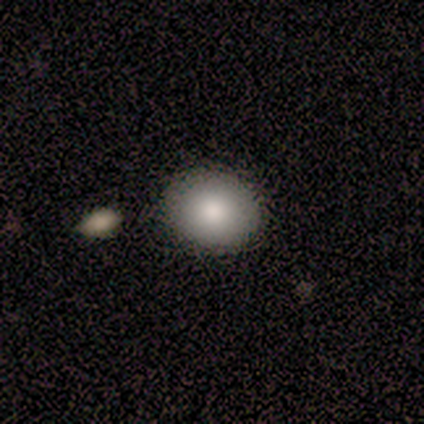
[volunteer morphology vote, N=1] smooth 100%, featured or disk 0%, star or artifact 0%. Down the decision tree: how rounded — round (100%); merging — minor disturbance (100%).